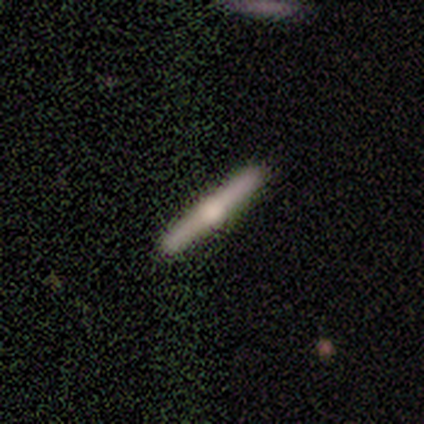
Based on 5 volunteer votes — Overall: featured or disk (80%). Edge-on disk: yes (100%). Edge-on bulge: rounded (100%). Merging: none (100%).